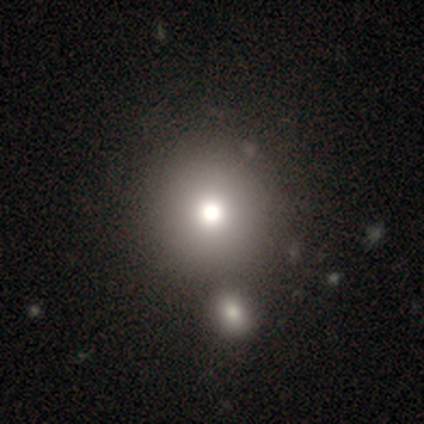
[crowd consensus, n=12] smooth-or-featured: smooth: 67% | star or artifact: 25% | featured or disk: 8%
  how-rounded: round: 88% | in between: 12% | cigar-shaped: 0%
  merging: none: 100% | minor disturbance: 0% | major disturbance: 0% | merger: 0%